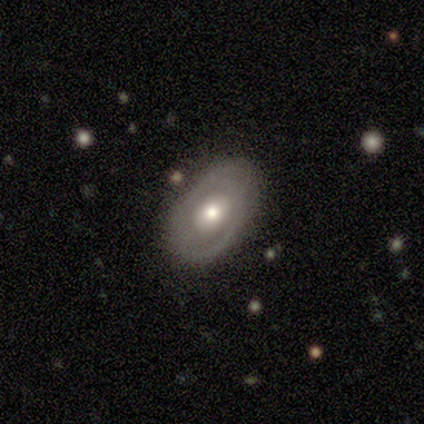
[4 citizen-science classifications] A featured or disk galaxy (100%) with no bar (67%), 2 (50%, tied with can't tell) tight (100%) spiral arms (67%) and a moderate central bulge (100%).

Vote fractions:
- Smooth or featured? featured or disk: 100% / smooth: 0% / star or artifact: 0%
- Edge-on disk? no: 75% / yes: 25%
- Bar? no: 67% / weak: 33% / strong: 0%
- Spiral arms? yes: 67% / no: 33%
- Spiral winding? tight: 100% / medium: 0% / loose: 0%
- Spiral arm count? 2: 50% (tied) / can't tell: 50% (tied) / 1: 0% / 3: 0% / 4: 0% / more than 4: 0%
- Bulge size? moderate: 100% / dominant: 0% / large: 0% / small: 0% / none: 0%
- Merging? none: 100% / minor disturbance: 0% / major disturbance: 0% / merger: 0%